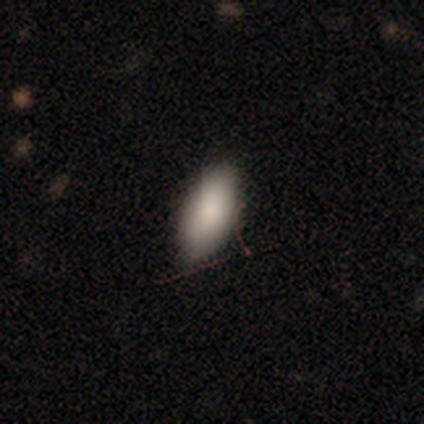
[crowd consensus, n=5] Volunteers were most divided on "merging": none: 60%, minor disturbance: 20%, major disturbance: 20%, merger: 0%. More confident: smooth or featured — smooth (100%); how rounded — in between (80%).